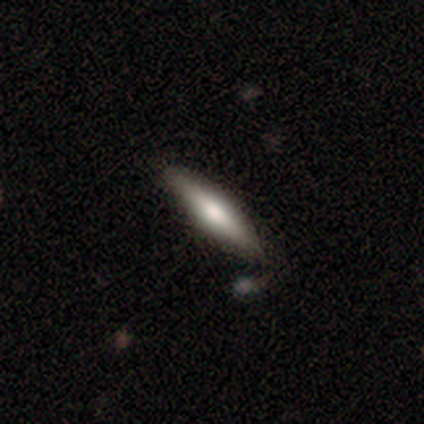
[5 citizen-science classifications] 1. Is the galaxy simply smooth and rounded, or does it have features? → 80% smooth, 20% featured or disk, 0% star or artifact.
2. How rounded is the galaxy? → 100% cigar-shaped, 0% round, 0% in between.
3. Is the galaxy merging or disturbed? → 100% none, 0% minor disturbance, 0% major disturbance, 0% merger.